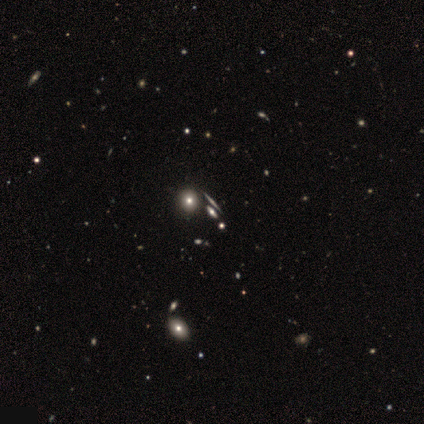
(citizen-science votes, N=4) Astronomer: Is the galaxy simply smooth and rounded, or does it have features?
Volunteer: smooth — 50%, tied with star or artifact at 50%.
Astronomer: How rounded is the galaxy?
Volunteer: round — 100%.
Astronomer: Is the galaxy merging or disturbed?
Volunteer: none — 100%.